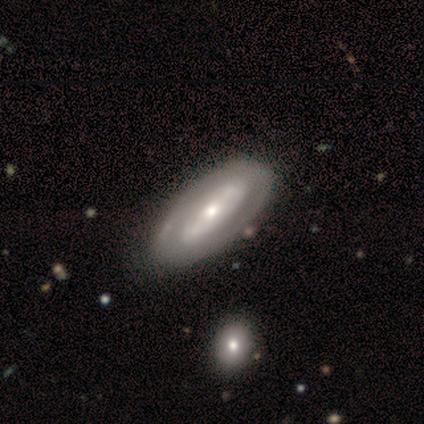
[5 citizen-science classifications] This is clearly a featured or disk galaxy (80%). It is clearly not viewed edge-on (100%). Bar: likely strong (75%). Spiral arm pattern: likely no (75%). Central bulge: likely small (75%). Merging: likely none (60%).